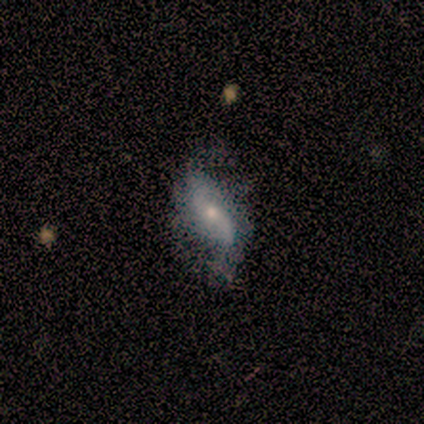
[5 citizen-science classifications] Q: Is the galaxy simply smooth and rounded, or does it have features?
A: featured or disk — 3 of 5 (60%).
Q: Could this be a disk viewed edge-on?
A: no — 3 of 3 (100%).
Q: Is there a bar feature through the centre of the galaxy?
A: no — 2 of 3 (67%).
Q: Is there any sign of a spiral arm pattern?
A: yes — 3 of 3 (100%).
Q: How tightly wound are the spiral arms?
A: medium — 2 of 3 (67%).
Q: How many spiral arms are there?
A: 2 — 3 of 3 (100%).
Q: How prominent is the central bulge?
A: small — 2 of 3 (67%).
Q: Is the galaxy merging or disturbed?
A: major disturbance — 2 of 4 (50%).